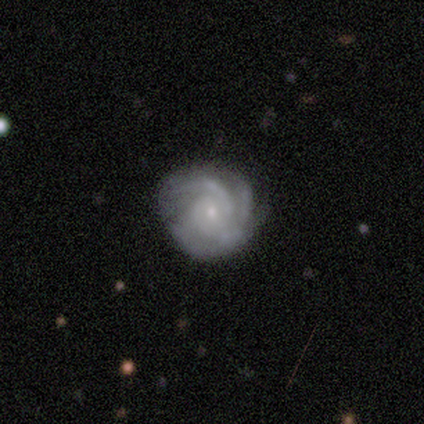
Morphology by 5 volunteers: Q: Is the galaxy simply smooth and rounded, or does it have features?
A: featured or disk — 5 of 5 (100%).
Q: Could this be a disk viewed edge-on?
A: no — 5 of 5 (100%).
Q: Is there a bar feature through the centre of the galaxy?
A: no — 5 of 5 (100%).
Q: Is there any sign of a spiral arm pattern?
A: yes — 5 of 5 (100%).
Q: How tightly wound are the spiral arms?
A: tight — 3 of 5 (60%).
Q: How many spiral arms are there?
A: can't tell — 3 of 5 (60%).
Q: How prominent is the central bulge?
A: small — 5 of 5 (100%).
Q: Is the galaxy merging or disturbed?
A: none — 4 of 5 (80%).